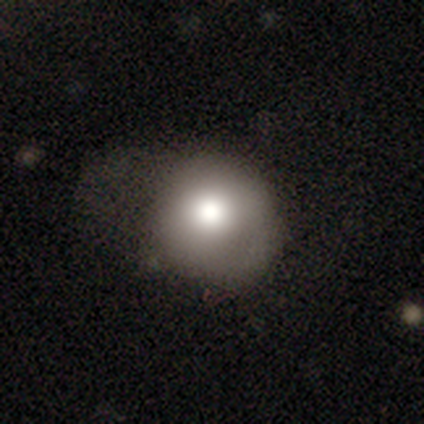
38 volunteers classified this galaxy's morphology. smooth 76%, featured or disk 18%, star or artifact 5%. Down the decision tree: how rounded — round (93%); merging — none (42%).